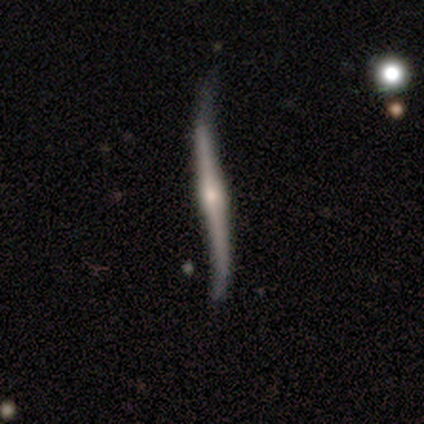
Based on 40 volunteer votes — Smooth or featured: featured or disk — 82% (smooth — 10%)
Edge-on disk: yes — 88% (no — 12%)
Edge-on bulge: rounded — 90% (none — 10%)
Merging: minor disturbance — 43% (none — 41%)